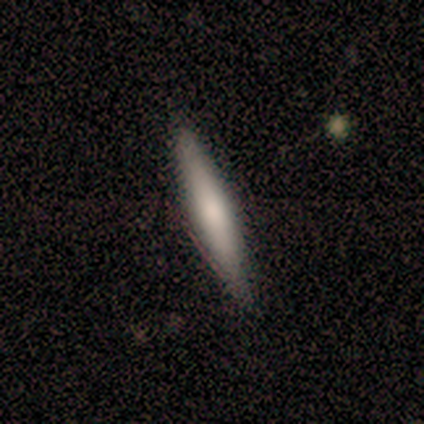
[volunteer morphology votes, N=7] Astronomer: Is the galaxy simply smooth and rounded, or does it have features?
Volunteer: featured or disk — 57% (runner-up: smooth, 43%).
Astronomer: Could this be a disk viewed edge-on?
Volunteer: yes — 100%.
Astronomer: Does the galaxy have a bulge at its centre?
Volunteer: none — 50%.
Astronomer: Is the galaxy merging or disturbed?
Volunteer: none — 71%.